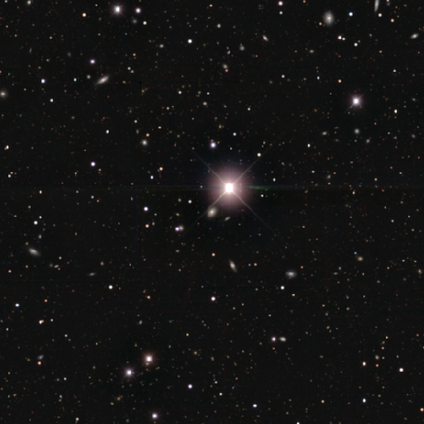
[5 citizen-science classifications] Q: Smooth or featured?
A: star or artifact (80%); runner-up: featured or disk (20%)